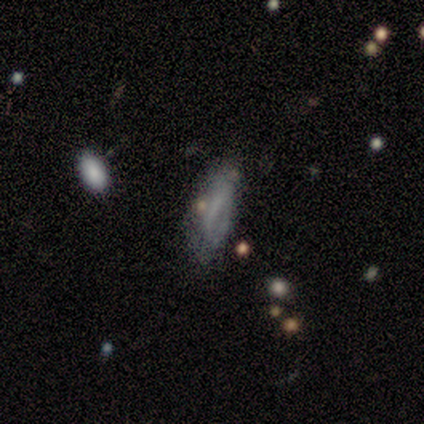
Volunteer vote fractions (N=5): Smooth or featured?
  - smooth: 60% *
  - featured or disk: 40%
  - star or artifact: 0%
How rounded?
  - in between: 67% *
  - cigar-shaped: 33%
  - round: 0%
Merging?
  - none: 40% * (tied)
  - major disturbance: 40% * (tied)
  - minor disturbance: 20%
  - merger: 0%